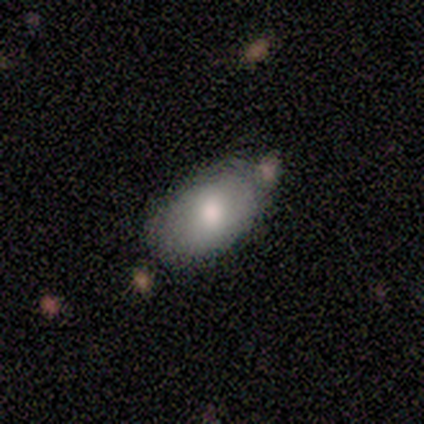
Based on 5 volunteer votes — Smooth or featured? smooth (60%)
How rounded? in between (100%)
Merging? none (75%)